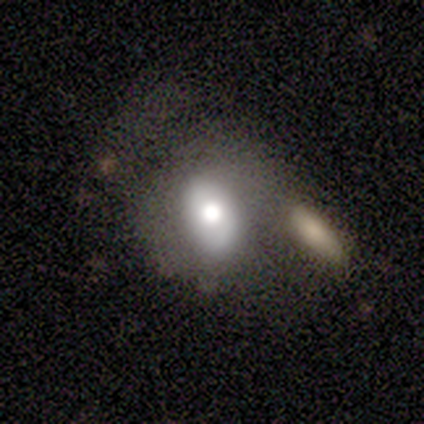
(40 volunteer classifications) Volunteers were most divided on "merging": merger: 33%, none: 28%, major disturbance: 13%, minor disturbance: 10%. More confident: how rounded — in between (73%); smooth or featured — smooth (55%).